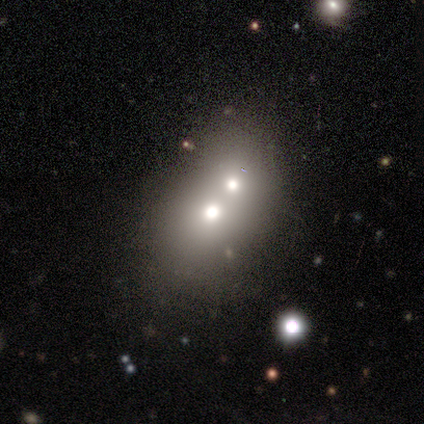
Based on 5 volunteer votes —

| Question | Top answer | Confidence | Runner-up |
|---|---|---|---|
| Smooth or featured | smooth | 40% | tied: star or artifact (40%) |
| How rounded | round | 50% | tied: in between (50%) |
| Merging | merger | 67% | none (33%) |